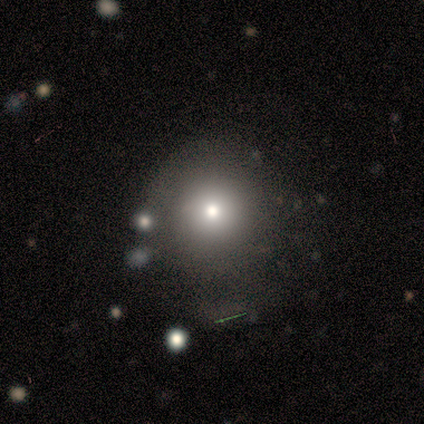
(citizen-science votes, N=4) smooth-or-featured: smooth: 100% | featured or disk: 0% | star or artifact: 0%
  how-rounded: round: 100% | in between: 0% | cigar-shaped: 0%
  merging: none: 50% | minor disturbance: 25% | major disturbance: 25% | merger: 0%